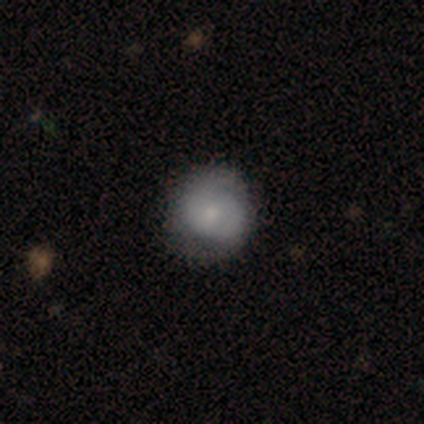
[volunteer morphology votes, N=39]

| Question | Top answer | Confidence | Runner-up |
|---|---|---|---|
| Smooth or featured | smooth | 49% | featured or disk (41%) |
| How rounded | round | 95% | in between (5%) |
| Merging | none | 63% | minor disturbance (31%) |